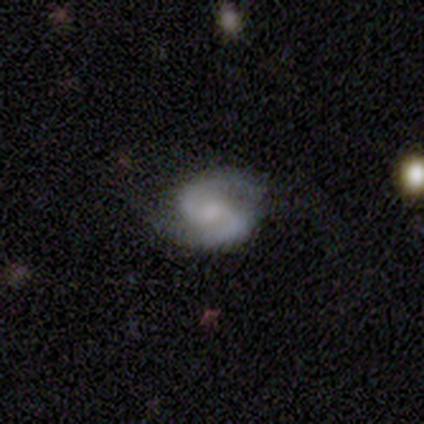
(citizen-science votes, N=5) Volunteers were most divided on "spiral winding": medium: 60%, tight: 40%, loose: 0%. More confident: smooth or featured — featured or disk (100%); edge-on disk — no (100%); spiral arms — yes (100%); spiral arm count — 2 (100%); bar — weak (80%); bulge size — small (60%); merging — none (60%).